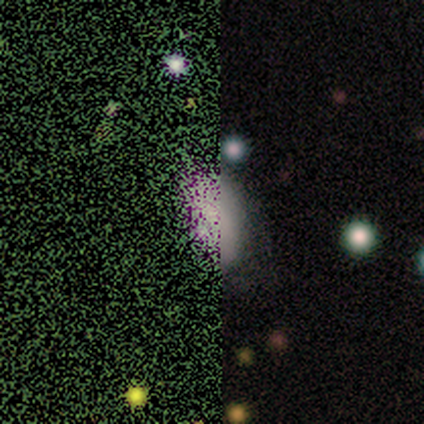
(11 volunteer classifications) Volunteers were most divided on "smooth or featured": smooth: 55%, star or artifact: 45%, featured or disk: 0%. More confident: how rounded — in between (83%); merging — none (83%).